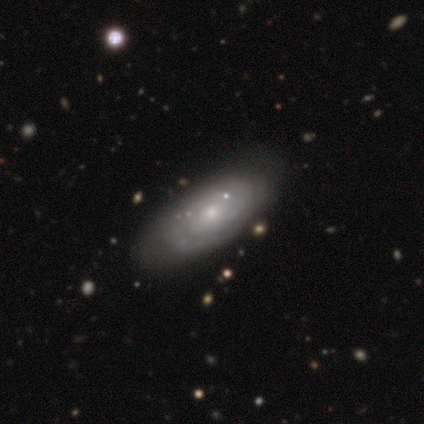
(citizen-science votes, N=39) Overall: featured or disk (85%). Edge-on disk: no (91%). Bar: no (73%). Spiral arms: yes (90%). Spiral arm count: can't tell (48%; 2 44%). Spiral winding: tight (70%). Bulge size: small (53%; moderate 40%). Merging: none (44%; minor disturbance 26%).